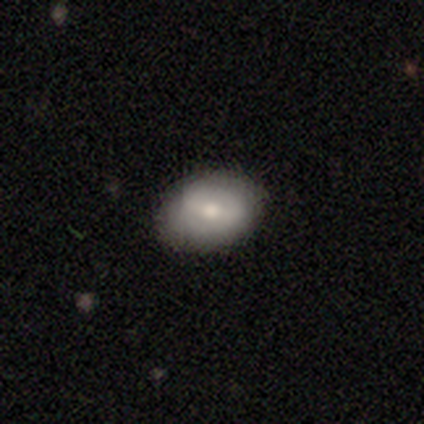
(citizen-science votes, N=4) Volunteers were most divided on "smooth or featured": smooth: 50%, featured or disk: 25%, star or artifact: 25%. More confident: how rounded — in between (100%); merging — none (67%).